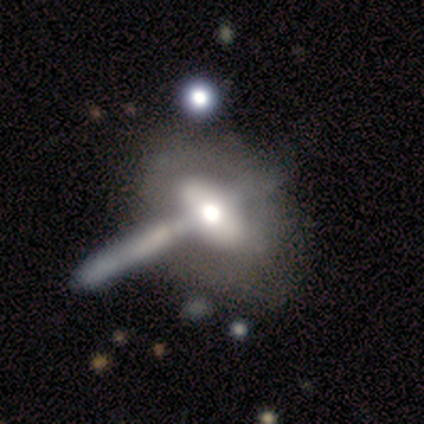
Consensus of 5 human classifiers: smooth_or_featured: featured or disk (p=0.80) [alt: smooth p=0.20]
disk_edge_on: yes (p=0.50) [tied with: no p=0.50]
edge_on_bulge: rounded (p=1.00)
merging: none (p=0.80) [alt: merger p=0.20]